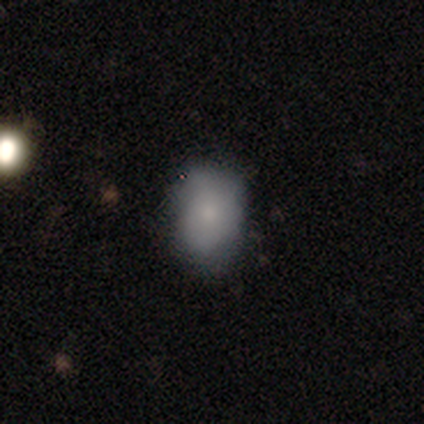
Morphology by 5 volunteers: Smooth or featured? smooth (60%)
How rounded? in between (100%)
Merging? none (80%)